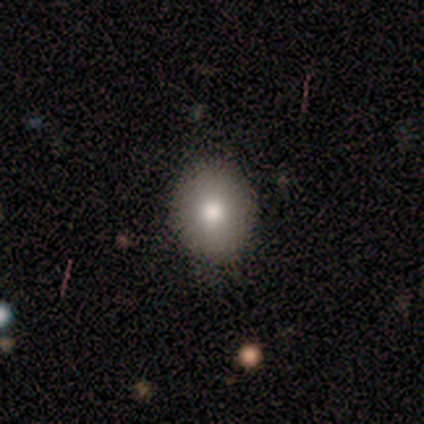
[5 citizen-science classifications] Volunteers were most divided on "how rounded": in between: 60%, round: 40%, cigar-shaped: 0%. More confident: smooth or featured — smooth (100%); merging — none (80%).